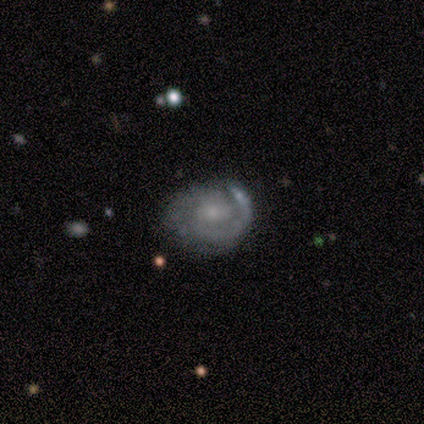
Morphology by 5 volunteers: Smooth or featured?
  - featured or disk: 80% *
  - smooth: 20%
  - star or artifact: 0%
Edge-on disk?
  - no: 100% *
  - yes: 0%
Bar?
  - no: 75% *
  - weak: 25%
  - strong: 0%
Spiral arms?
  - yes: 100% *
  - no: 0%
Spiral winding?
  - tight: 75% *
  - loose: 25%
  - medium: 0%
Spiral arm count?
  - 2: 100% *
  - 1: 0%
  - 3: 0%
  - 4: 0%
  - more than 4: 0%
  - can't tell: 0%
Bulge size?
  - small: 75% *
  - moderate: 25%
  - dominant: 0%
  - large: 0%
  - none: 0%
Merging?
  - none: 80% *
  - minor disturbance: 20%
  - major disturbance: 0%
  - merger: 0%